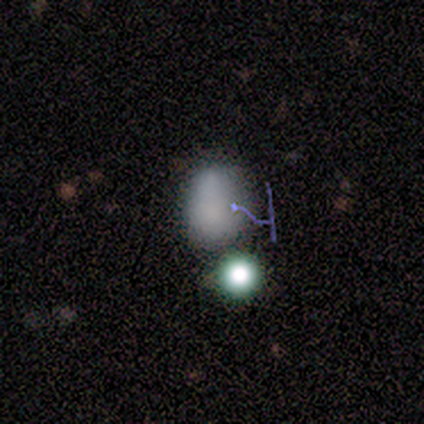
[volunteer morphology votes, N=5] Smooth or featured? 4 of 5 (80%) said smooth. How rounded? 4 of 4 (100%) said in between. Merging? 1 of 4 (25%, tied with minor disturbance, major disturbance and merger) said none.